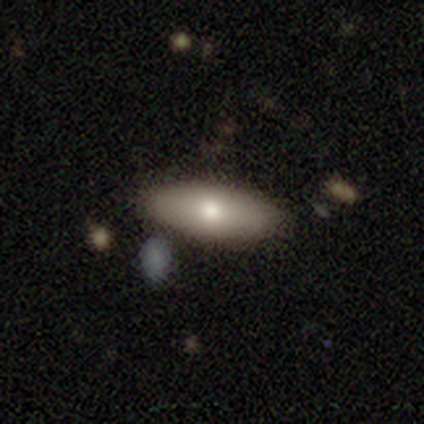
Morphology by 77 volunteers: Smooth or featured? smooth (81%)
How rounded? in between (90%)
Merging? none (47%)